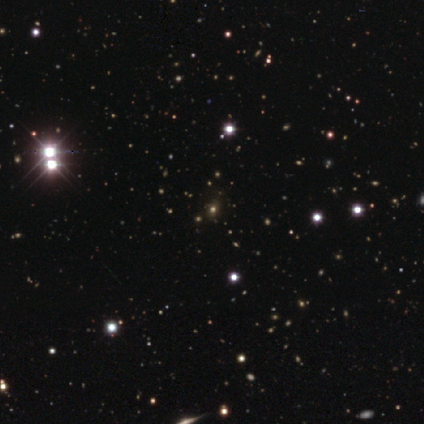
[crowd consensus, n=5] Smooth or featured?
  - star or artifact: 60% *
  - featured or disk: 40%
  - smooth: 0%